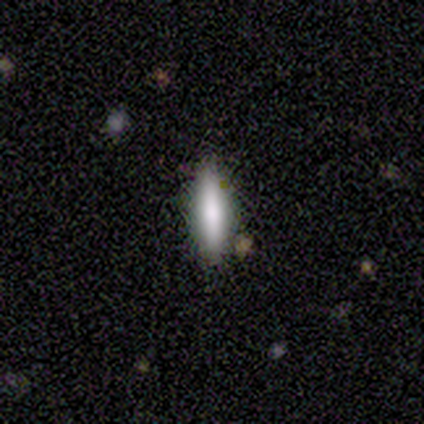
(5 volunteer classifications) smooth 100%, featured or disk 0%, star or artifact 0%. Down the decision tree: how rounded — cigar-shaped (100%); merging — none (60%).